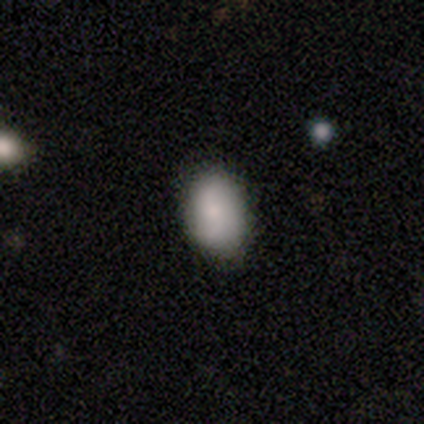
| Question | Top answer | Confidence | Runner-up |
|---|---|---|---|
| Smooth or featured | smooth | 80% | featured or disk (20%) |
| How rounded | in between | 100% | — |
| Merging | none | 60% | minor disturbance (40%) |